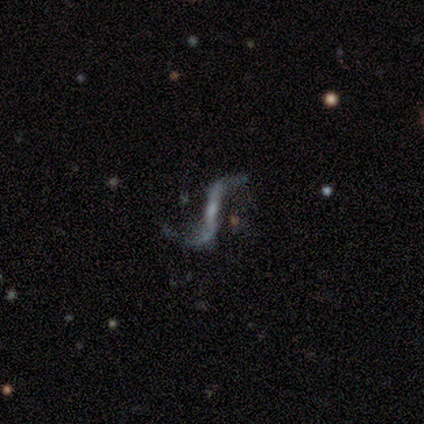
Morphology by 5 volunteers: Q: Smooth or featured?
A: featured or disk (100%)
Q: Edge-on disk?
A: no (80%); runner-up: yes (20%)
Q: Bar?
A: strong (50%); runner-up: weak (25%)
Q: Spiral arms?
A: yes (100%)
Q: Spiral winding?
A: loose (100%)
Q: Spiral arm count?
A: 2 (100%)
Q: Bulge size?
A: small (50%); runner-up: moderate (25%)
Q: Merging?
A: none (60%); runner-up: minor disturbance (20%)